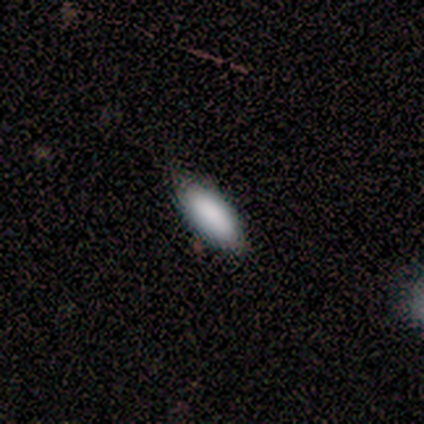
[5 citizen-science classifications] This is clearly a smooth galaxy (100%). How rounded: clearly in between (100%). Merging: clearly none (80%).